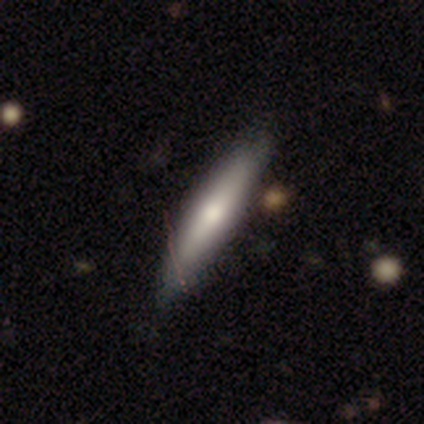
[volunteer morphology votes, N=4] Smooth or featured? smooth (75%)
How rounded? cigar-shaped (67%)
Merging? none (100%)